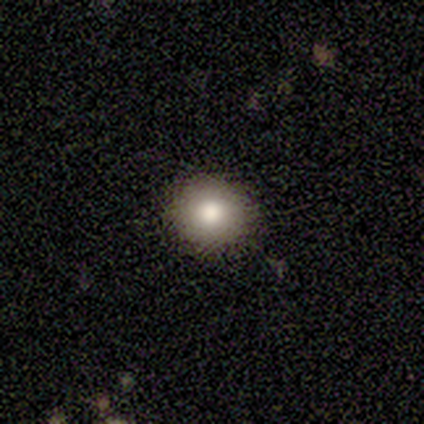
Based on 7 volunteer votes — smooth-or-featured: smooth: 86% | star or artifact: 14% | featured or disk: 0%
  how-rounded: round: 83% | in between: 17% | cigar-shaped: 0%
  merging: none: 83% | minor disturbance: 17% | major disturbance: 0% | merger: 0%